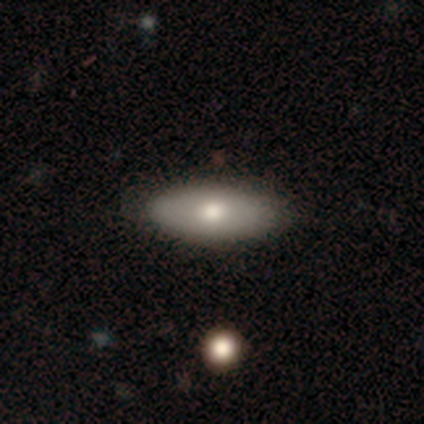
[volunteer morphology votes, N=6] Smooth or featured? smooth (67%)
How rounded? in between (100%)
Merging? none (67%)